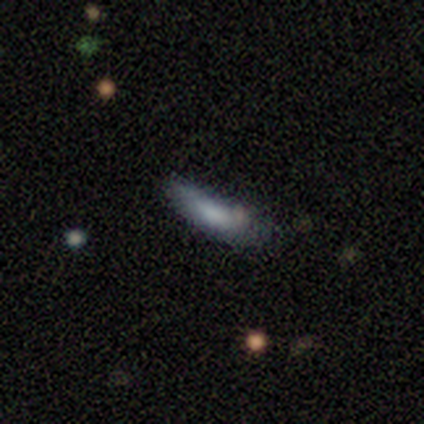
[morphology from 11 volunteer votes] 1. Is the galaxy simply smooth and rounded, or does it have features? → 91% smooth, 9% featured or disk, 0% star or artifact.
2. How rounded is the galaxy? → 80% cigar-shaped, 20% in between, 0% round.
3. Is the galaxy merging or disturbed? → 55% minor disturbance, 27% none, 18% major disturbance, 0% merger.